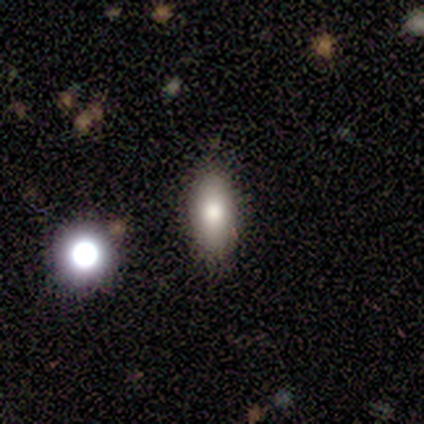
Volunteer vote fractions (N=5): Morphology: type=smooth (100%); roundness=in between (100%); merging=none (100%).